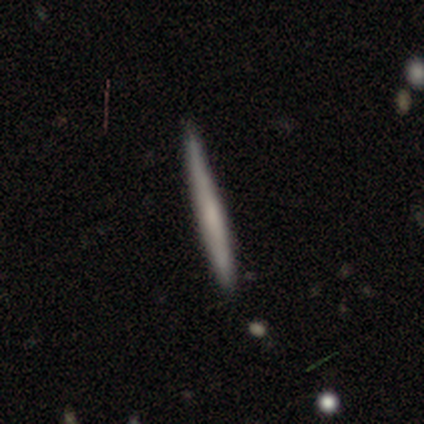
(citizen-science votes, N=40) A smooth galaxy with no disk features (55%) that is cigar-shaped (100%).

Vote fractions:
- Smooth or featured? smooth: 55% / featured or disk: 35% / star or artifact: 10%
- How rounded? cigar-shaped: 100% / round: 0% / in between: 0%
- Merging? none: 89% / minor disturbance: 11% / major disturbance: 0% / merger: 0%